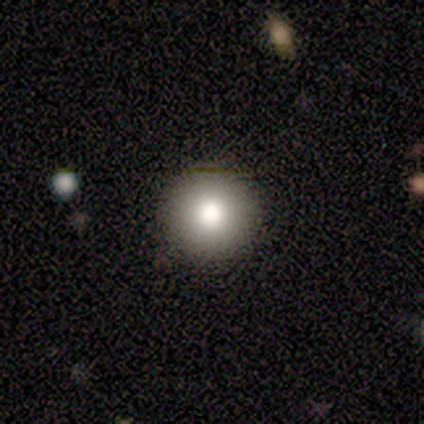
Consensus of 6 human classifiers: Q: Smooth or featured?
A: smooth (50%); runner-up: featured or disk (33%)
Q: How rounded?
A: round (100%)
Q: Merging?
A: none (80%); runner-up: minor disturbance (20%)